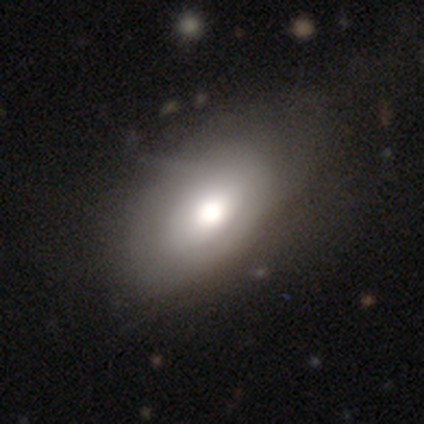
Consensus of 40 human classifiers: Volunteers were most divided on "smooth or featured": smooth: 57%, featured or disk: 35%, star or artifact: 8%. Remaining: how rounded — in between (96%); merging — none (49%).